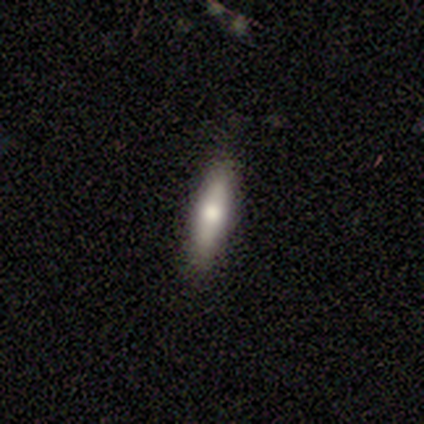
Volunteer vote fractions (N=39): Smooth or featured? smooth (54%)
How rounded? cigar-shaped (86%)
Merging? none (88%)